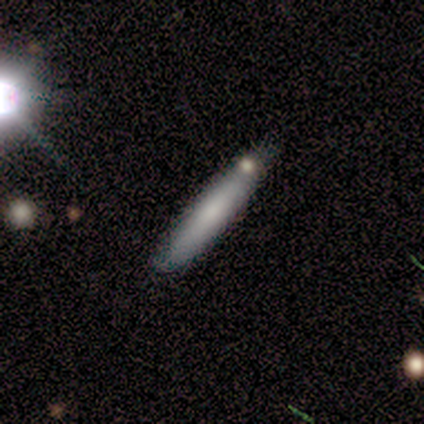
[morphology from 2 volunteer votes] A smooth galaxy with no disk features (50%, tied with featured or disk) that is cigar-shaped (100%).

Vote fractions:
- Smooth or featured? smooth: 50% (tied) / featured or disk: 50% (tied) / star or artifact: 0%
- How rounded? cigar-shaped: 100% / round: 0% / in between: 0%
- Merging? none: 100% / minor disturbance: 0% / major disturbance: 0% / merger: 0%